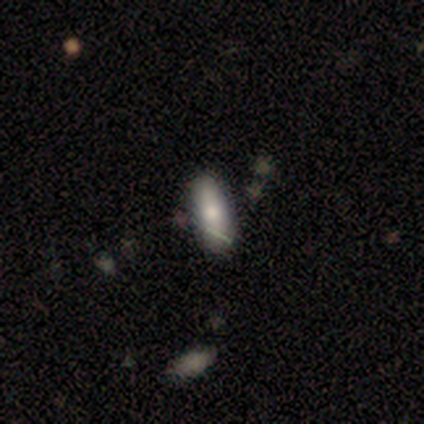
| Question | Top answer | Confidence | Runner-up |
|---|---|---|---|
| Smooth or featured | smooth | 100% | — |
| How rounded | in between | 60% | cigar-shaped (40%) |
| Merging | none | 80% | minor disturbance (20%) |